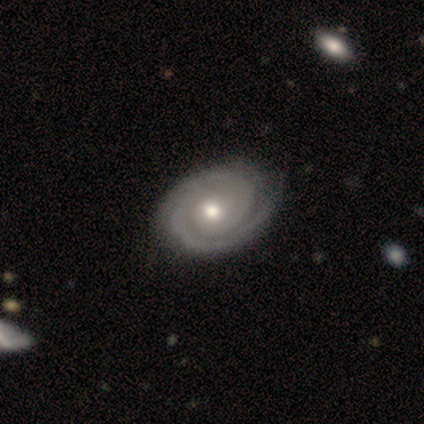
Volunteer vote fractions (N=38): Smooth or featured: featured or disk — 92% (smooth — 5%)
Edge-on disk: no — 100%
Bar: no — 97% (weak — 3%)
Spiral arms: yes — 100%
Spiral winding: tight — 71% (medium — 20%)
Spiral arm count: 2 — 77% (1 — 17%)
Bulge size: moderate — 69% (small — 17%)
Merging: none — 62% (major disturbance — 8%)